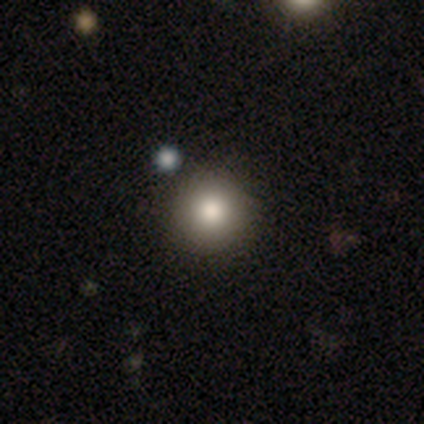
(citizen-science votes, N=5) Smooth or featured? 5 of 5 (100%) said smooth. How rounded? 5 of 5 (100%) said round. Merging? 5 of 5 (100%) said none.